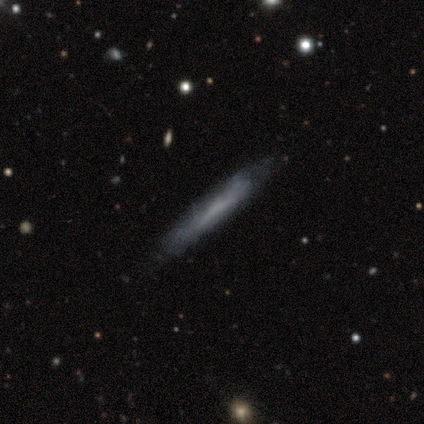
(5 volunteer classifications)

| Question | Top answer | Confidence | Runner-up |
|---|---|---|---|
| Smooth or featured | featured or disk | 60% | smooth (20%) |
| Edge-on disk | yes | 67% | no (33%) |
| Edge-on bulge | none | 100% | — |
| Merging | none | 75% | major disturbance (25%) |